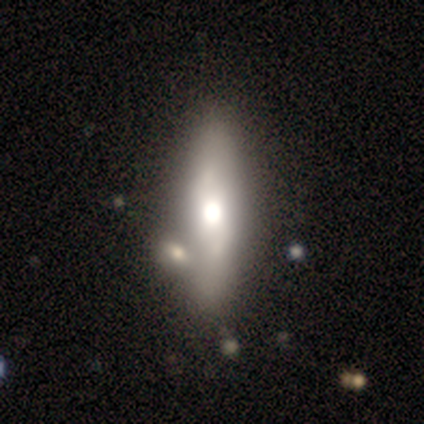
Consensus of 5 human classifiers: smooth-or-featured: featured or disk: 100% | smooth: 0% | star or artifact: 0%
  disk-edge-on: no: 60% | yes: 40%
    bar: no: 100% | strong: 0% | weak: 0%
    has-spiral-arms: no: 67% | yes: 33%
    bulge-size: moderate: 67% | dominant: 33% | large: 0% | small: 0% | none: 0%
  merging: merger: 60% | none: 20% | minor disturbance: 20% | major disturbance: 0%